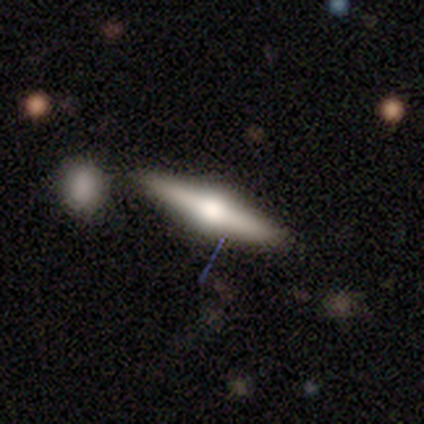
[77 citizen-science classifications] Smooth or featured?
  - featured or disk: 75% *
  - smooth: 19%
  - star or artifact: 5%
Edge-on disk?
  - yes: 97% *
  - no: 3%
Edge-on bulge?
  - rounded: 96% *
  - boxy: 4%
  - none: 0%
Merging?
  - none: 42% *
  - merger: 10%
  - minor disturbance: 7%
  - major disturbance: 0%